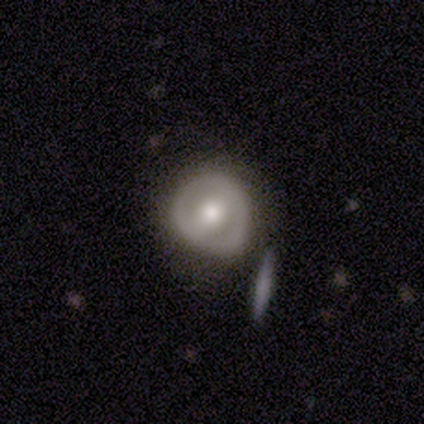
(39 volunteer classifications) Smooth or featured?
  - featured or disk: 62% *
  - smooth: 33%
  - star or artifact: 5%
Edge-on disk?
  - no: 96% *
  - yes: 4%
Bar?
  - strong: 43% *
  - weak: 30%
  - no: 26%
Spiral arms?
  - no: 83% *
  - yes: 17%
Bulge size?
  - moderate: 65% *
  - large: 17%
  - small: 9%
  - dominant: 4%
  - none: 4%
Merging?
  - none: 57% *
  - minor disturbance: 24%
  - major disturbance: 14%
  - merger: 5%